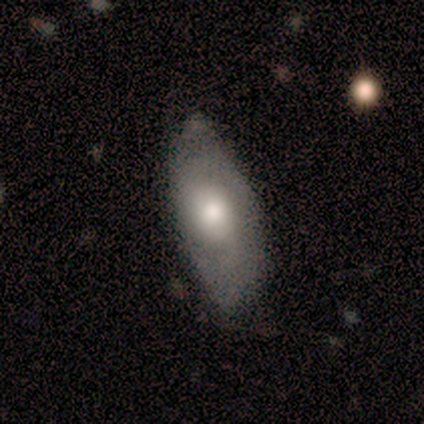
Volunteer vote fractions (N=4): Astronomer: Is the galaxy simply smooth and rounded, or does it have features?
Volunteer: featured or disk — 75%.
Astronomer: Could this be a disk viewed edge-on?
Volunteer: no — 100%.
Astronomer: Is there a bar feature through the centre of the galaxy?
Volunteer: no — 100%.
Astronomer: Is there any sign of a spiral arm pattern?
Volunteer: no — 67%.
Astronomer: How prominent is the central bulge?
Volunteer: moderate — 67%.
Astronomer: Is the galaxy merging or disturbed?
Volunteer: minor disturbance — 50%.